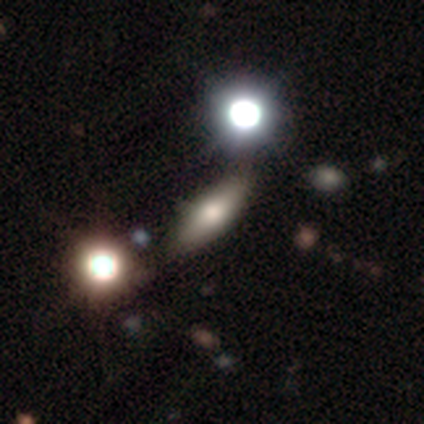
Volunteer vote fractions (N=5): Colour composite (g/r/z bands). It shows a smooth galaxy with no disk features (80%) that is in between round and cigar-shaped (50%, tied with cigar-shaped). Merging: none (100%).